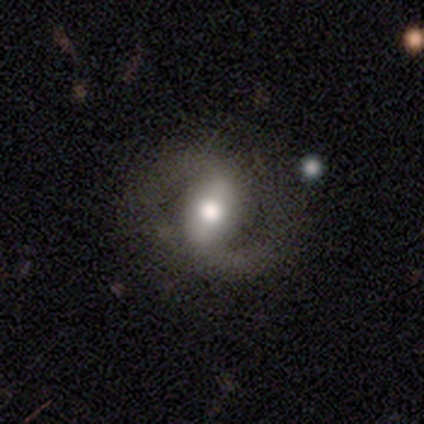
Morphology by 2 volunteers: Q: Smooth or featured?
A: featured or disk (100%)
Q: Edge-on disk?
A: no (100%)
Q: Bar?
A: weak (50%); tied with: no (50%)
Q: Spiral arms?
A: yes (50%); tied with: no (50%)
Q: Spiral winding?
A: loose (100%)
Q: Spiral arm count?
A: can't tell (100%)
Q: Bulge size?
A: small (50%); tied with: none (50%)
Q: Merging?
A: major disturbance (100%)